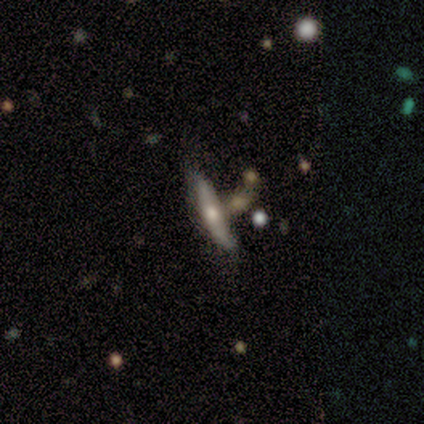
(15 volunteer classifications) smooth-or-featured: featured or disk: 73% | smooth: 20% | star or artifact: 7%
  disk-edge-on: yes: 82% | no: 18%
    edge-on-bulge: rounded: 100% | boxy: 0% | none: 0%
  merging: none: 36% (tied) | merger: 36% (tied) | minor disturbance: 21% | major disturbance: 7%